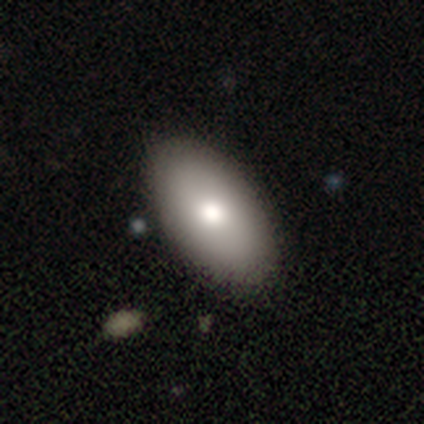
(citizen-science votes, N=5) This appears to be a smooth galaxy with no disk features (100%) that is in between round and cigar-shaped (100%). Merging: none (100%).